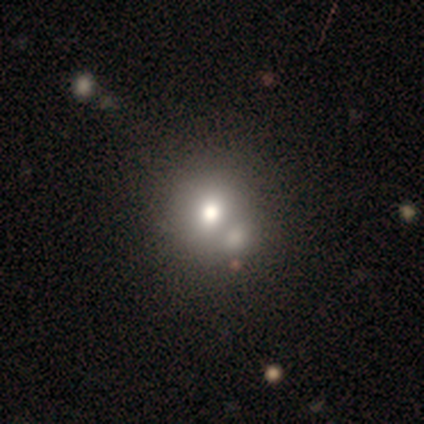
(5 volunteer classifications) smooth 60%, featured or disk 20%, star or artifact 20%. Down the decision tree: how rounded — round (100%); merging — none (75%).